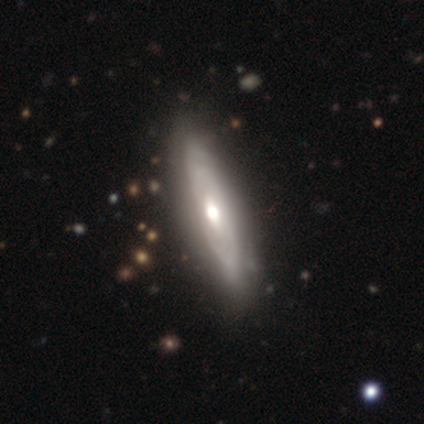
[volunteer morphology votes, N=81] type=featured or disk (75%); edge-on=yes (51%); edge-on bulge=rounded (90%); merging=none (35%).